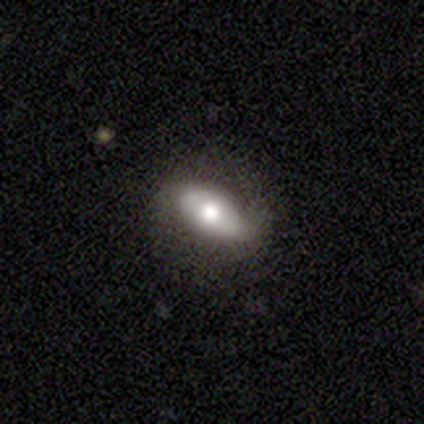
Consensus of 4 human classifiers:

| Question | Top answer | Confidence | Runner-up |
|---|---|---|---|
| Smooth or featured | smooth | 75% | featured or disk (25%) |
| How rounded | in between | 67% | cigar-shaped (33%) |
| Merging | none | 50% | tied: minor disturbance (50%) |